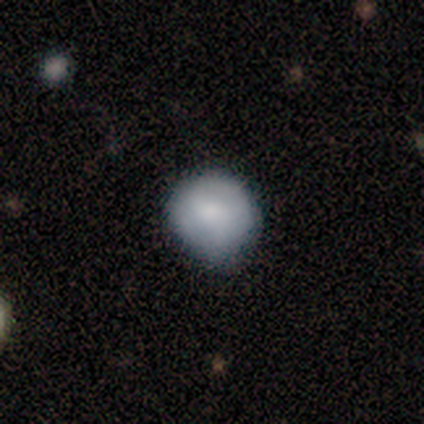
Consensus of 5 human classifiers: This is clearly a smooth galaxy (100%). How rounded: likely round (60%). Merging: likely none (60%).